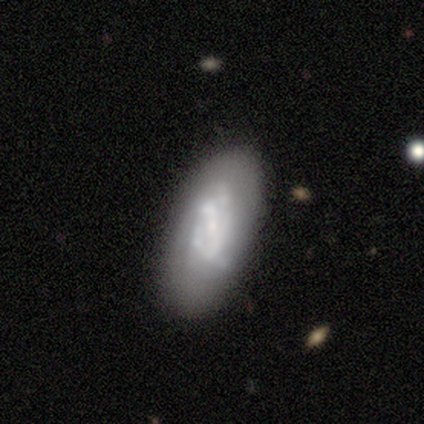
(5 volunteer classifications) smooth-or-featured: featured or disk: 80% | smooth: 20% | star or artifact: 0%
  disk-edge-on: no: 100% | yes: 0%
    bar: no: 100% | strong: 0% | weak: 0%
    has-spiral-arms: no: 75% | yes: 25%
    bulge-size: large: 50% | moderate: 25% | small: 25% | dominant: 0% | none: 0%
  merging: none: 80% | minor disturbance: 20% | major disturbance: 0% | merger: 0%